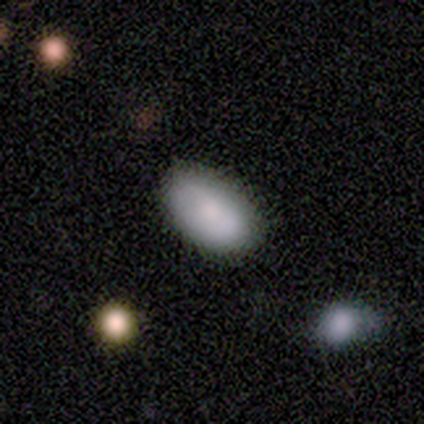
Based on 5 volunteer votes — Morphology: type=smooth (80%); roundness=in between (75%); merging=none (60%).